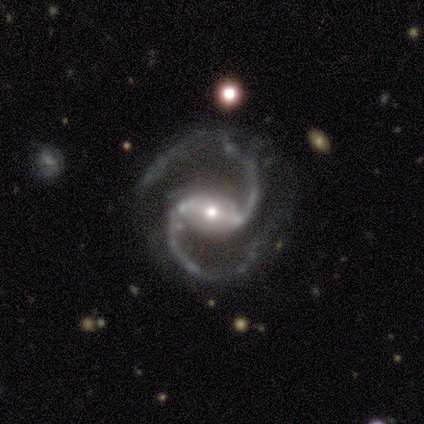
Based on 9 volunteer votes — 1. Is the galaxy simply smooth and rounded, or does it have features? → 100% featured or disk, 0% smooth, 0% star or artifact.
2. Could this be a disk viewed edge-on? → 100% no, 0% yes.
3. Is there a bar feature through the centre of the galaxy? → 78% strong, 22% weak, 0% no.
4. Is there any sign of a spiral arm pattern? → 100% yes, 0% no.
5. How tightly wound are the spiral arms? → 78% medium, 22% tight, 0% loose.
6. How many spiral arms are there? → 100% 2, 0% 1, 0% 3, 0% 4, 0% more than 4, 0% can't tell.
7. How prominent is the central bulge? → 67% small, 33% moderate, 0% dominant, 0% large, 0% none.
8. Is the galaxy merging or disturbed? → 67% none, 33% minor disturbance, 0% major disturbance, 0% merger.